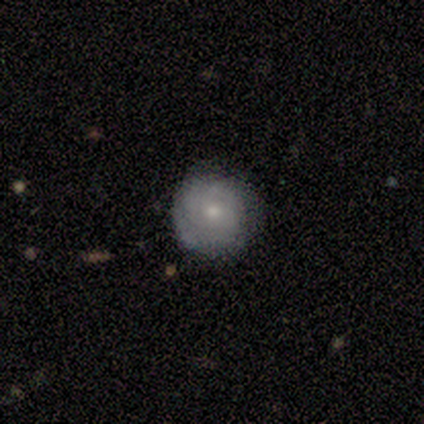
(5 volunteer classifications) Smooth or featured: featured or disk — 60% (smooth — 40%)
Edge-on disk: no — 100%
Bar: no — 100%
Spiral arms: yes — 67% (no — 33%)
Spiral winding: tight — 50% (tied with medium — 50%)
Spiral arm count: 2 — 50% (tied with can't tell — 50%)
Bulge size: moderate — 67% (small — 33%)
Merging: none — 80% (merger — 20%)